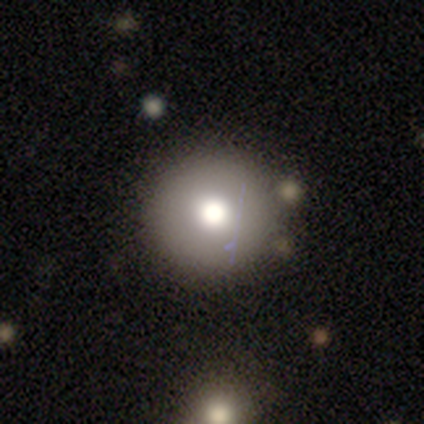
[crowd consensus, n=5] Morphology: type=smooth (40%, tied with featured or disk); roundness=round (100%); merging=none (50%).